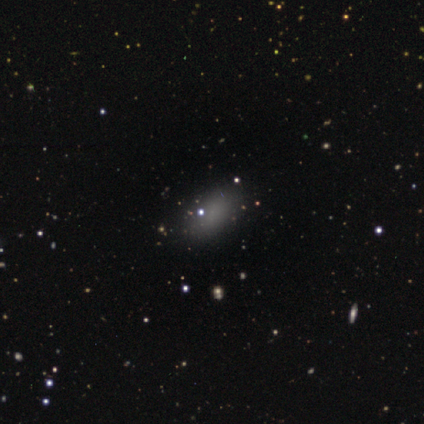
Volunteers were most divided on "smooth or featured": smooth: 80%, featured or disk: 20%, star or artifact: 0%. More confident: how rounded — in between (100%); merging — none (80%).